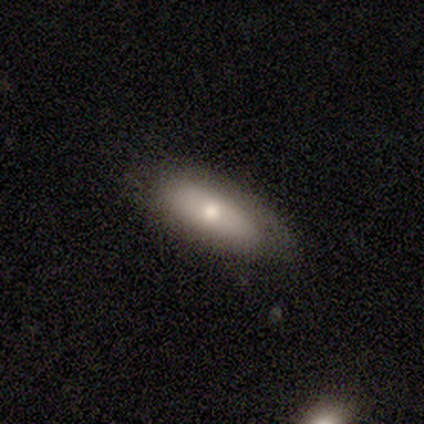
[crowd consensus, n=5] Q: Smooth or featured?
A: smooth (60%); runner-up: featured or disk (40%)
Q: How rounded?
A: in between (100%)
Q: Merging?
A: none (60%); runner-up: minor disturbance (40%)